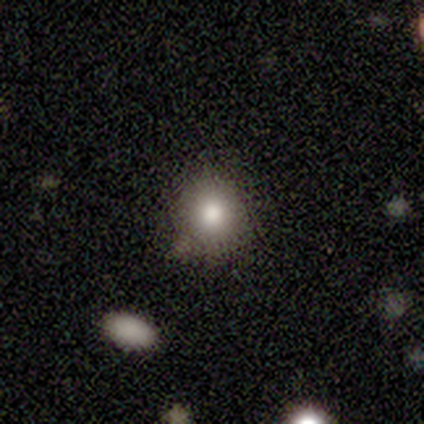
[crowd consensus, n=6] This is clearly a smooth galaxy (100%). How rounded: clearly round (100%). Merging: clearly none (83%).